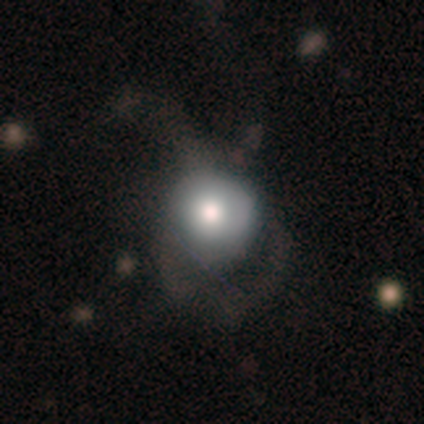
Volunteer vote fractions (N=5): smooth_or_featured: smooth (p=1.00)
how_rounded: round (p=1.00)
merging: none (p=0.40) [tied with: minor disturbance p=0.40]